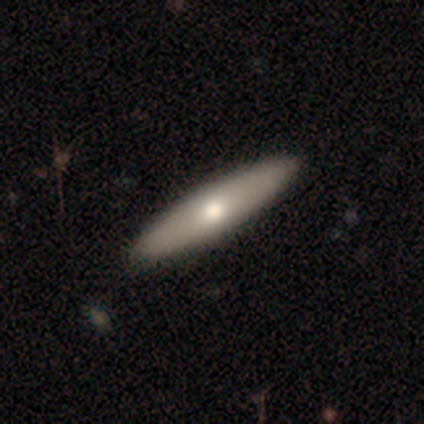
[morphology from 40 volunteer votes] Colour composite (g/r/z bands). It shows a smooth galaxy with no disk features (52%) that is cigar-shaped (76%). Merging: none (60%).